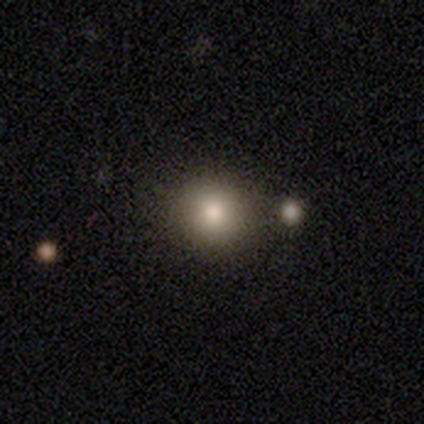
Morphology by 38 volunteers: smooth-or-featured: smooth: 79% | star or artifact: 13% | featured or disk: 8%
  how-rounded: round: 100% | in between: 0% | cigar-shaped: 0%
  merging: none: 88% | merger: 9% | minor disturbance: 3% | major disturbance: 0%